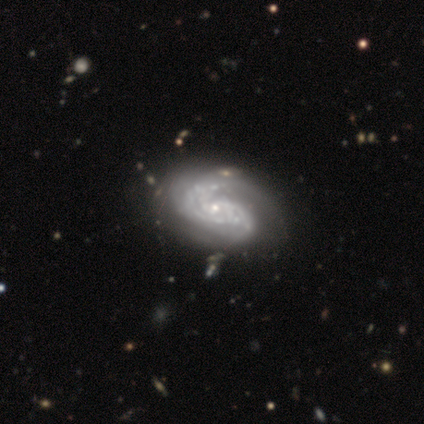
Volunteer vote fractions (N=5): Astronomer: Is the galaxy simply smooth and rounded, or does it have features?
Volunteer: featured or disk — 80%.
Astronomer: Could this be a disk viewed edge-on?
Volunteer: no — 100%.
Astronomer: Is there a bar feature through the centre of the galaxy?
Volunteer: no — 100%.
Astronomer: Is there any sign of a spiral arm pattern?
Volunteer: yes — 100%.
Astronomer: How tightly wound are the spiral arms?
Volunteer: medium — 75%.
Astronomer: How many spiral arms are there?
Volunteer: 2 — 75%.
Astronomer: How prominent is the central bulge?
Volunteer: small — 75%.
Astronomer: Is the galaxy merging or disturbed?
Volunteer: none — 100%.